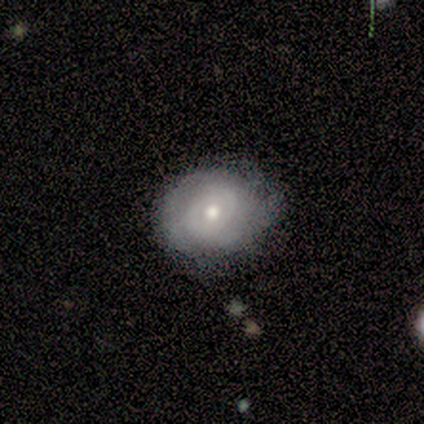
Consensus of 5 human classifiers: A featured or disk galaxy (80%) with no bar (100%), 2 (50%, tied with can't tell) tight (100%) spiral arms (100%) and a moderate central bulge (75%). Merging: none (80%).